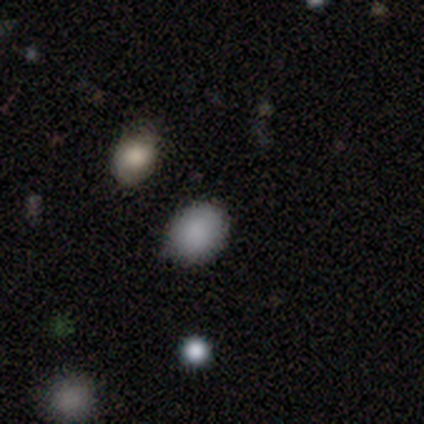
This appears to be a smooth galaxy with no disk features (67%) that is round (67%). Merging: none (86%).